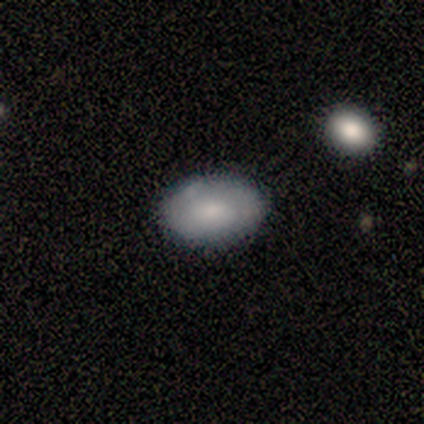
smooth 50% (tied), featured or disk 50% (tied), star or artifact 0%. Down the decision tree: how rounded — round (50%, tied with in between); merging — none (50%, tied with minor disturbance).